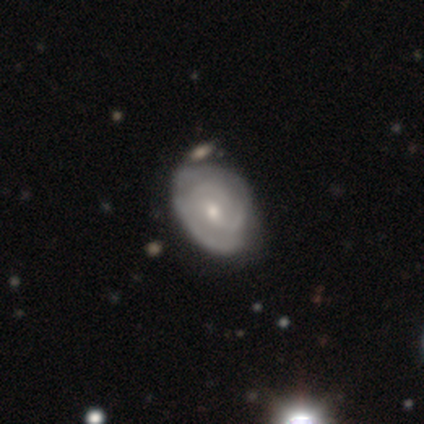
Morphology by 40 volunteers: Smooth or featured?
  - featured or disk: 72% *
  - smooth: 28%
  - star or artifact: 0%
Edge-on disk?
  - no: 97% *
  - yes: 3%
Bar?
  - weak: 50% *
  - no: 46%
  - strong: 4%
Spiral arms?
  - yes: 82% *
  - no: 18%
Spiral winding?
  - tight: 43% * (tied)
  - medium: 43% * (tied)
  - loose: 13%
Spiral arm count?
  - can't tell: 35% *
  - 2: 30%
  - 3: 26%
  - 4: 9%
  - 1: 0%
  - more than 4: 0%
Bulge size?
  - small: 50% *
  - moderate: 46%
  - none: 4%
  - dominant: 0%
  - large: 0%
Merging?
  - minor disturbance: 32% *
  - none: 25%
  - merger: 8%
  - major disturbance: 5%